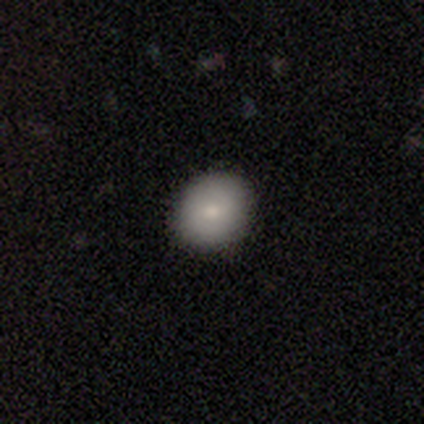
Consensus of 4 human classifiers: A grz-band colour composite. It shows a smooth galaxy with no disk features (75%) that is in between round and cigar-shaped (100%). Merging: none (100%).